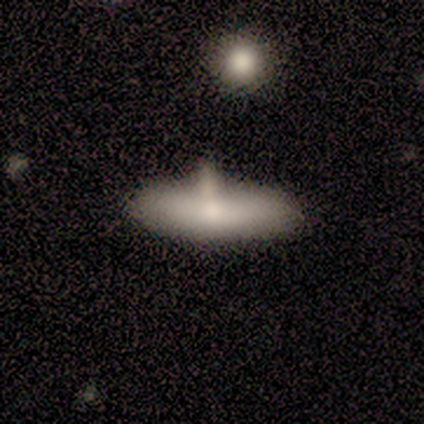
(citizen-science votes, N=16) Smooth or featured: smooth — 44% (tied with featured or disk — 44%)
How rounded: in between — 71% (cigar-shaped — 29%)
Merging: none — 50% (minor disturbance — 29%)